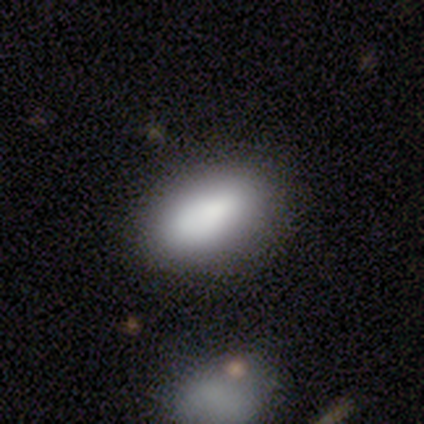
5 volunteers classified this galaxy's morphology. Q: Smooth or featured?
A: smooth (80%); runner-up: star or artifact (20%)
Q: How rounded?
A: in between (100%)
Q: Merging?
A: none (100%)